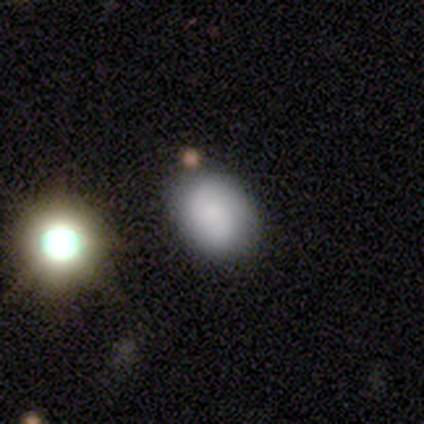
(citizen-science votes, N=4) smooth_or_featured: smooth (p=0.75) [alt: star or artifact p=0.25]
how_rounded: in between (p=0.67) [alt: round p=0.33]
merging: none (p=0.67) [alt: merger p=0.33]